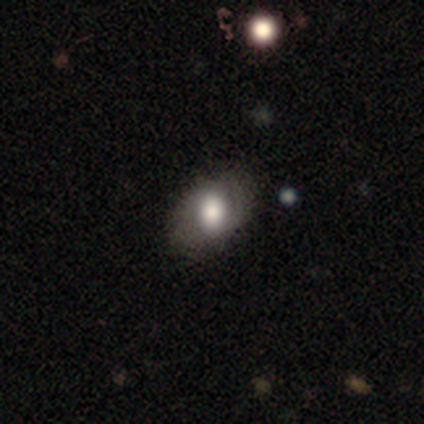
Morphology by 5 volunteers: Overall: smooth (80%). How rounded: in between (100%). Merging: none (80%).